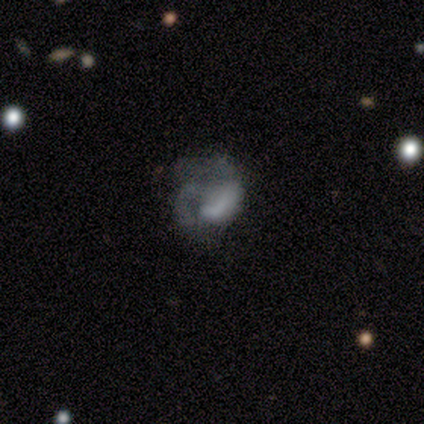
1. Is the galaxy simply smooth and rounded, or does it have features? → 78% featured or disk, 17% smooth, 5% star or artifact.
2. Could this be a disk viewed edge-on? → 100% no, 0% yes.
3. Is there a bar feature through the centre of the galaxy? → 75% no, 22% weak, 3% strong.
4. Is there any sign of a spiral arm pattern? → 59% yes, 41% no.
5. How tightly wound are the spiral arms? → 37% loose, 32% tight, 32% medium.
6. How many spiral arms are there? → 47% 2, 26% can't tell, 21% 1, 5% 3, 0% 4, 0% more than 4.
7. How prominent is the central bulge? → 44% none, 28% moderate, 16% small, 12% large, 0% dominant.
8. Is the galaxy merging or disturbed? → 67% major disturbance, 18% none, 8% minor disturbance, 8% merger.